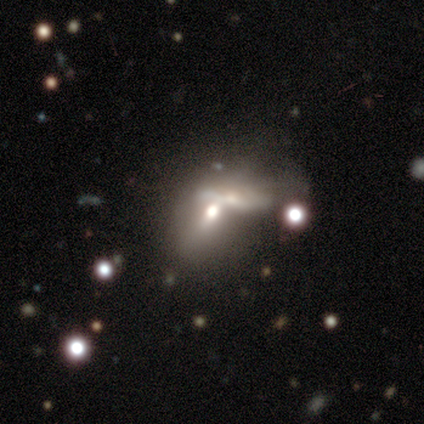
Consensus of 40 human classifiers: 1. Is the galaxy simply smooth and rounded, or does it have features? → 48% featured or disk, 42% smooth, 10% star or artifact.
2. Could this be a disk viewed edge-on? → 63% no, 37% yes.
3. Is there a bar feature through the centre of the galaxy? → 58% no, 33% weak, 8% strong.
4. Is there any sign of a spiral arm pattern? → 92% no, 8% yes.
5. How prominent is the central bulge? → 67% moderate, 25% none, 8% small, 0% dominant, 0% large.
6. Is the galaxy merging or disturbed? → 69% merger, 19% none, 8% major disturbance, 3% minor disturbance.